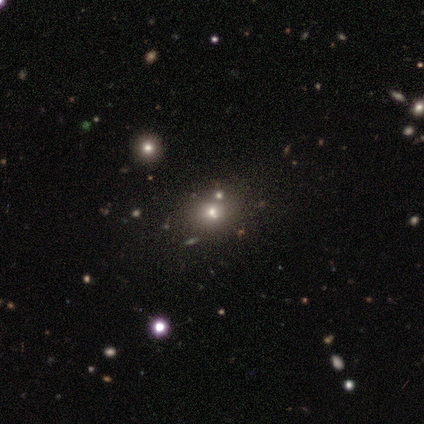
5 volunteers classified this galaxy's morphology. Smooth or featured: smooth — 40% (tied with star or artifact — 40%)
How rounded: round — 100%
Merging: none — 100%